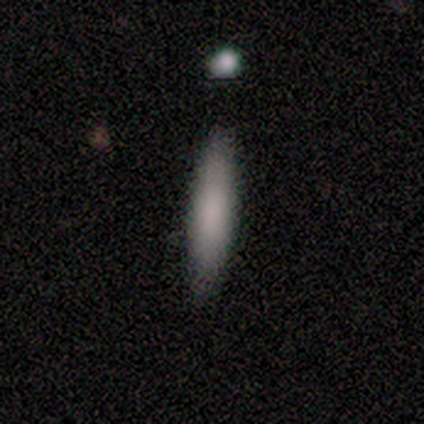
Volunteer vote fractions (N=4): A smooth galaxy with no disk features (100%) that is cigar-shaped (100%).

Vote fractions:
- Smooth or featured? smooth: 100% / featured or disk: 0% / star or artifact: 0%
- How rounded? cigar-shaped: 100% / round: 0% / in between: 0%
- Merging? none: 100% / minor disturbance: 0% / major disturbance: 0% / merger: 0%